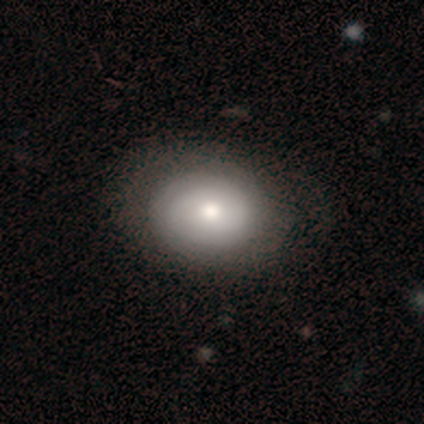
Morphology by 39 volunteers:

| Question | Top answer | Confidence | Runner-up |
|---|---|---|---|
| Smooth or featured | smooth | 59% | featured or disk (38%) |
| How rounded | in between | 52% | round (48%) |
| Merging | none | 47% | major disturbance (5%) |